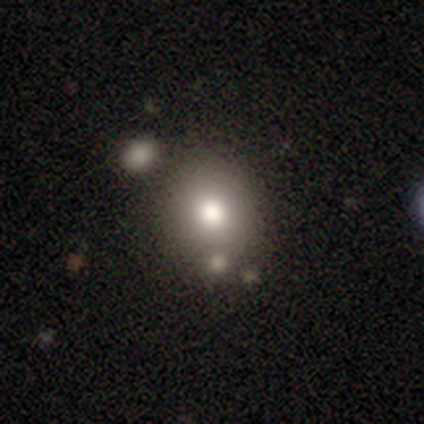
Smooth or featured? 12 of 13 (92%) said smooth. How rounded? 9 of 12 (75%) said round. Merging? 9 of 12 (75%) said none.